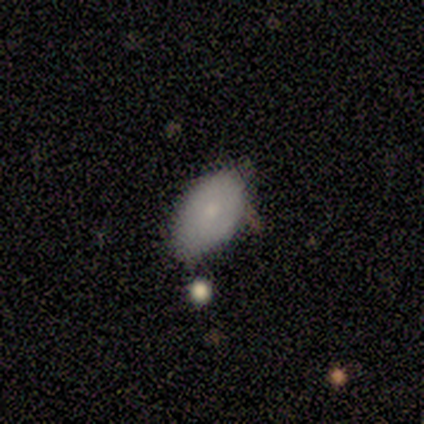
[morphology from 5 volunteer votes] This appears to be a smooth galaxy with no disk features (80%) that is in between round and cigar-shaped (75%). Merging: minor disturbance (60%).